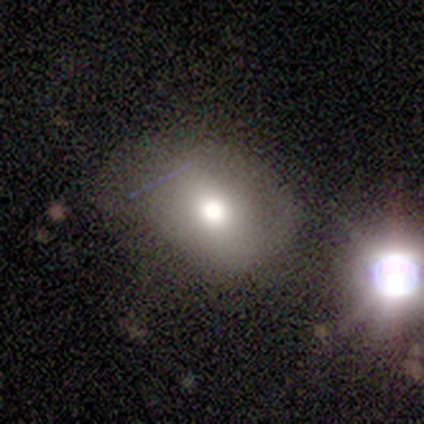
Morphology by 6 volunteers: This is clearly a smooth galaxy (83%). How rounded: likely in between (60%). Merging: marginally none (33%, tied with minor disturbance).